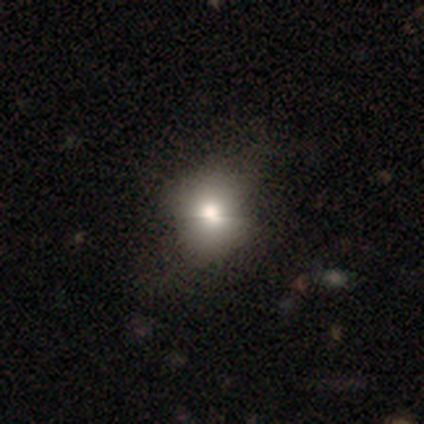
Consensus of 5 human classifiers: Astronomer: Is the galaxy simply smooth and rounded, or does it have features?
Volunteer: smooth — 60%.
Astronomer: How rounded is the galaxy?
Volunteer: round — 100%.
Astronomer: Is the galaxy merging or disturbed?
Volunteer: none — 75%.